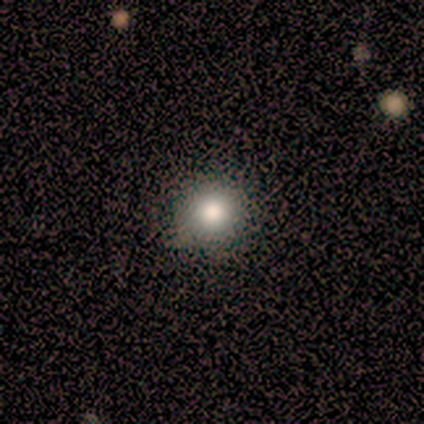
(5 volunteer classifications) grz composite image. It shows a smooth galaxy with no disk features (60%) that is round (67%). Merging: none (80%).